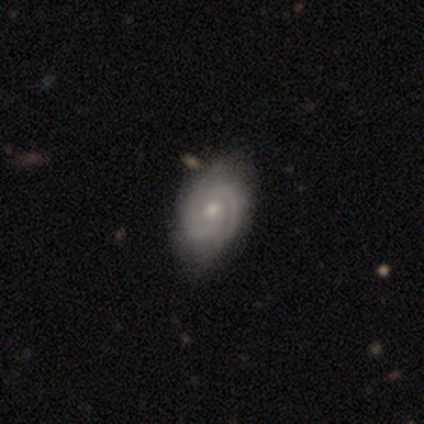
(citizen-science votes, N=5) smooth-or-featured: featured or disk: 100% | smooth: 0% | star or artifact: 0%
  disk-edge-on: no: 100% | yes: 0%
    bar: no: 80% | weak: 20% | strong: 0%
    has-spiral-arms: yes: 100% | no: 0%
      spiral-winding: tight: 80% | medium: 20% | loose: 0%
      spiral-arm-count: 2: 100% | 1: 0% | 3: 0% | 4: 0% | more than 4: 0% | can't tell: 0%
    bulge-size: small: 80% | none: 20% | dominant: 0% | large: 0% | moderate: 0%
  merging: none: 80% | minor disturbance: 20% | major disturbance: 0% | merger: 0%